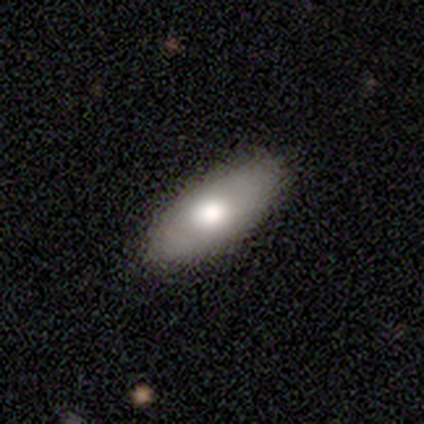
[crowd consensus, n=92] A smooth galaxy with no disk features (73%) that is in between round and cigar-shaped (85%). Merging: none (87%).